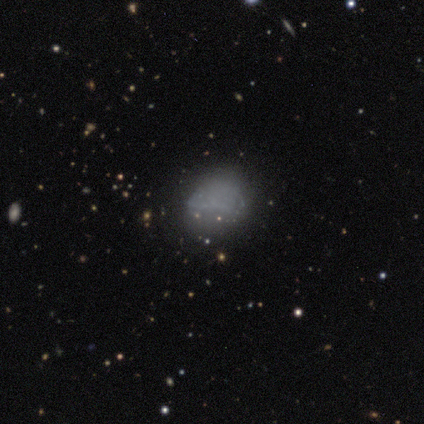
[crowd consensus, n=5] smooth-or-featured: smooth: 60% | featured or disk: 20% | star or artifact: 20%
  how-rounded: round: 67% | in between: 33% | cigar-shaped: 0%
  merging: none: 75% | minor disturbance: 25% | major disturbance: 0% | merger: 0%